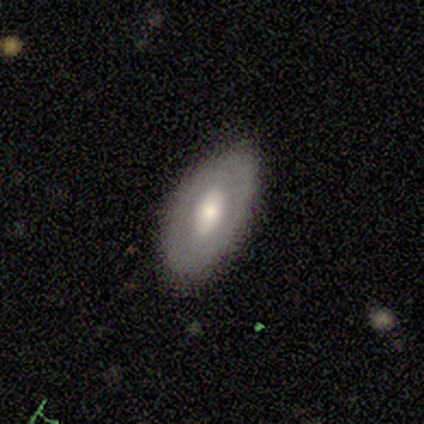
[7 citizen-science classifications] A featured or disk galaxy (57%) with a weak bar (50%), no spiral arms (100%) and a large central bulge (50%, tied with moderate). Merging: none (71%).